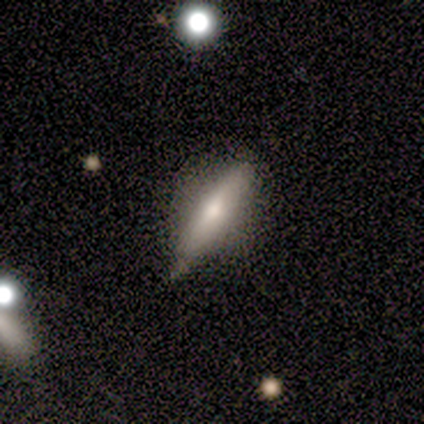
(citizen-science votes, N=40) Overall: smooth (50%; featured or disk 45%). How rounded: cigar-shaped (65%; in between 35%). Merging: none (66%; minor disturbance 29%).